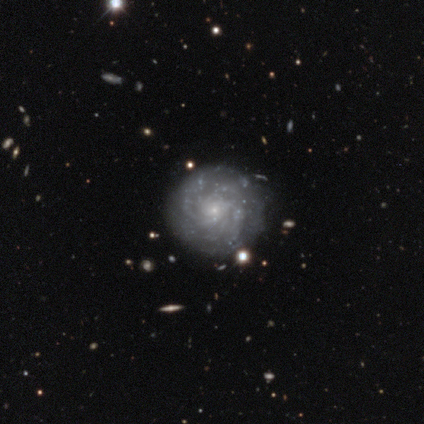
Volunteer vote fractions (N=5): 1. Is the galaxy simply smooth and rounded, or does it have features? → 100% featured or disk, 0% smooth, 0% star or artifact.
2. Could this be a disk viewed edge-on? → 100% no, 0% yes.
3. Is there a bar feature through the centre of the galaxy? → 100% no, 0% strong, 0% weak.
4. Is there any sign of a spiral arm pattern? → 100% yes, 0% no.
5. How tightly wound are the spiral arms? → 80% tight, 20% medium, 0% loose.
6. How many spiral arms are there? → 40% more than 4 (tied), 40% can't tell (tied), 20% 3, 0% 1, 0% 2, 0% 4.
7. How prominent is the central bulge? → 80% small, 20% moderate, 0% dominant, 0% large, 0% none.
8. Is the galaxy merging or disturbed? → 100% none, 0% minor disturbance, 0% major disturbance, 0% merger.